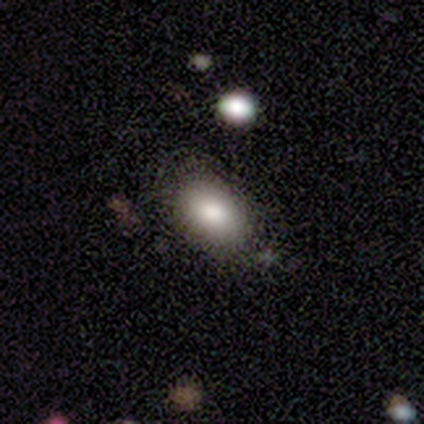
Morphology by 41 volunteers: smooth-or-featured: smooth: 76% | featured or disk: 17% | star or artifact: 7%
  how-rounded: in between: 90% | round: 10% | cigar-shaped: 0%
  merging: none: 71% | minor disturbance: 24% | major disturbance: 3% | merger: 3%